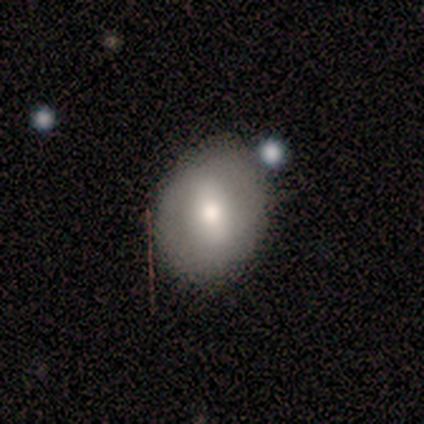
This appears to be a smooth galaxy with no disk features (80%) that is round (75%). Merging: none (80%).